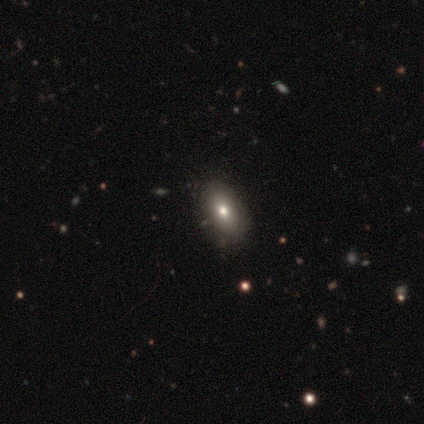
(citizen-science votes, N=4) Smooth or featured?
  - smooth: 50% * (tied)
  - featured or disk: 50% * (tied)
  - star or artifact: 0%
How rounded?
  - round: 50% * (tied)
  - cigar-shaped: 50% * (tied)
  - in between: 0%
Merging?
  - none: 100% *
  - minor disturbance: 0%
  - major disturbance: 0%
  - merger: 0%